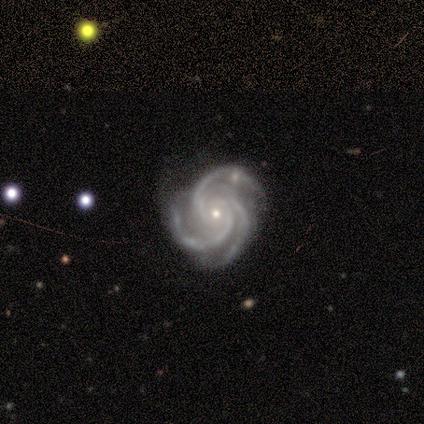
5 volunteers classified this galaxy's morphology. A featured or disk galaxy (80%) with no bar (100%), 3 (100%) tight (50%, tied with medium) spiral arms (100%) and a small central bulge (75%). Merging: none (50%, tied with minor disturbance).